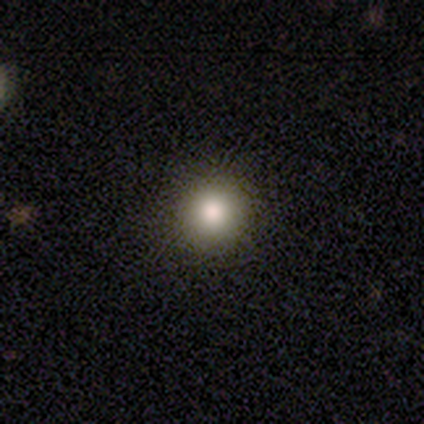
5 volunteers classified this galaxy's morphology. smooth 100%, featured or disk 0%, star or artifact 0%. Down the decision tree: how rounded — round (100%); merging — none (100%).